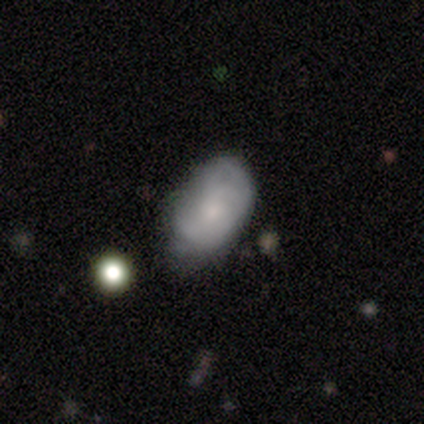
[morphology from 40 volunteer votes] Smooth or featured: featured or disk — 57% (smooth — 28%)
Edge-on disk: no — 100%
Bar: no — 74% (weak — 26%)
Spiral arms: yes — 70% (no — 30%)
Spiral winding: medium — 44% (tight — 38%)
Spiral arm count: can't tell — 44% (2 — 31%)
Bulge size: small — 61% (moderate — 26%)
Merging: minor disturbance — 44% (none — 38%)